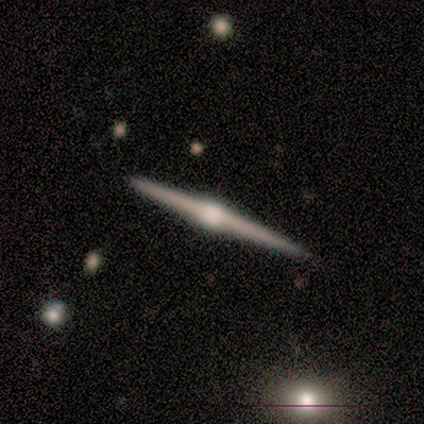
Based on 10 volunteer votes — Volunteers were most divided on "merging": none: 80%, minor disturbance: 20%, major disturbance: 0%, merger: 0%. More confident: edge-on disk — yes (100%); edge-on bulge — rounded (100%); smooth or featured — featured or disk (90%).